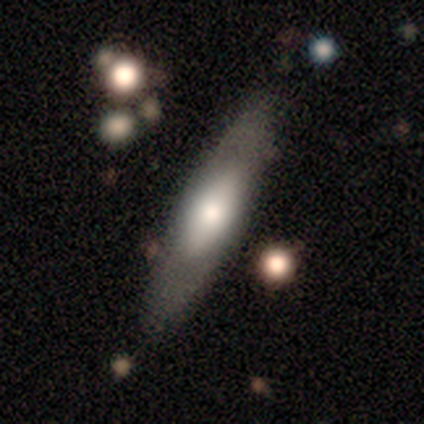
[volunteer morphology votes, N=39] Smooth or featured?
  - featured or disk: 56% *
  - smooth: 36%
  - star or artifact: 8%
Edge-on disk?
  - yes: 73% *
  - no: 27%
Edge-on bulge?
  - rounded: 69% *
  - none: 19%
  - boxy: 12%
Merging?
  - none: 72% *
  - minor disturbance: 17%
  - major disturbance: 6%
  - merger: 6%